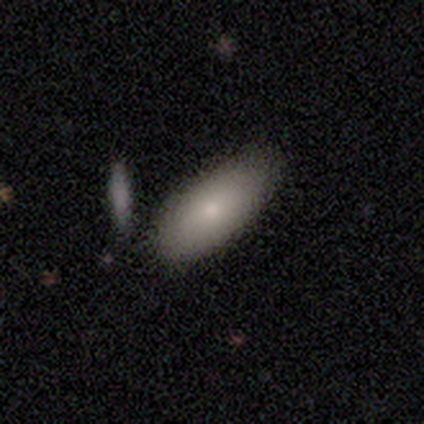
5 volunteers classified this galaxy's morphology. type=smooth (80%); roundness=in between (100%); merging=none (80%).